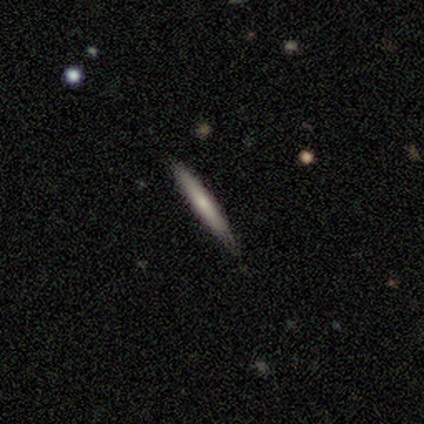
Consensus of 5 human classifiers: Volunteers were most divided on "smooth or featured": smooth: 80%, featured or disk: 20%, star or artifact: 0%. More confident: how rounded — cigar-shaped (100%); merging — none (80%).